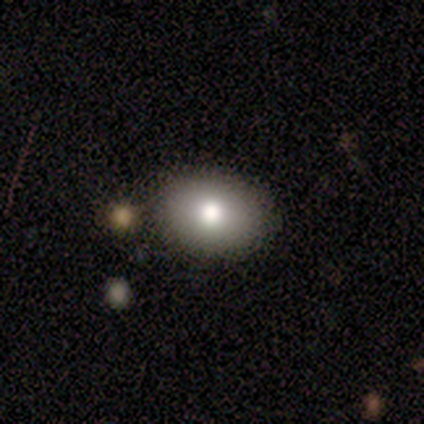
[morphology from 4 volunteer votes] smooth 50%, featured or disk 25%, star or artifact 25%. Down the decision tree: how rounded — in between (100%); merging — none (100%).